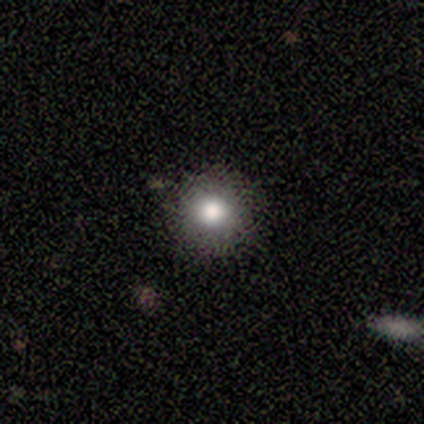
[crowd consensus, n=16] smooth 81%, featured or disk 12%, star or artifact 6%. Down the decision tree: how rounded — round (100%); merging — none (87%).